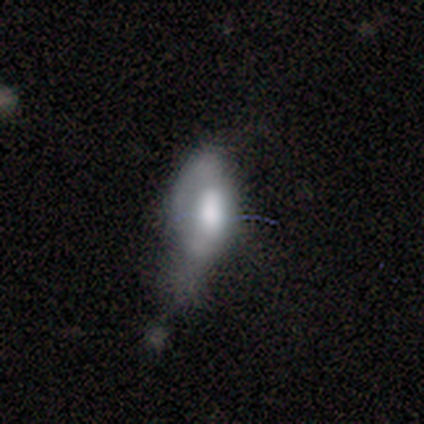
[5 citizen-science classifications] Smooth or featured? smooth (40%, tied with featured or disk)
How rounded? in between (100%)
Merging? major disturbance (75%)